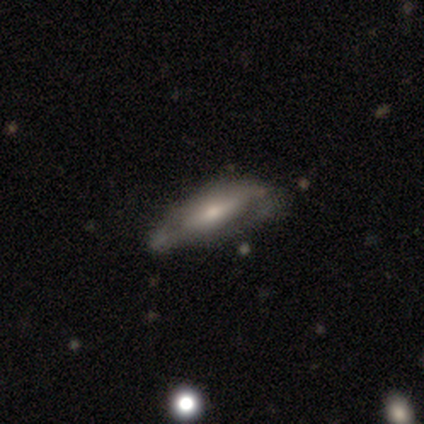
Morphology: type=featured or disk (69%); edge-on=yes (52%); edge-on bulge=rounded (79%); merging=none (50%).